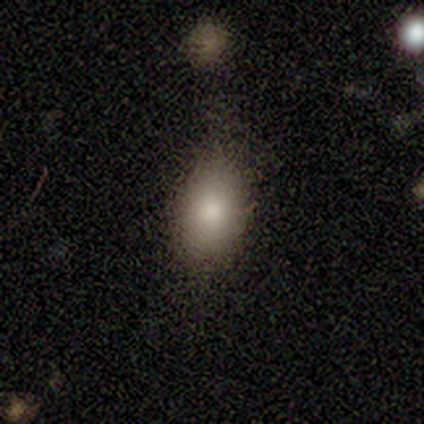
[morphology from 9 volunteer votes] Q: Smooth or featured?
A: smooth (67%); runner-up: featured or disk (22%)
Q: How rounded?
A: in between (83%); runner-up: round (17%)
Q: Merging?
A: none (88%); runner-up: minor disturbance (12%)